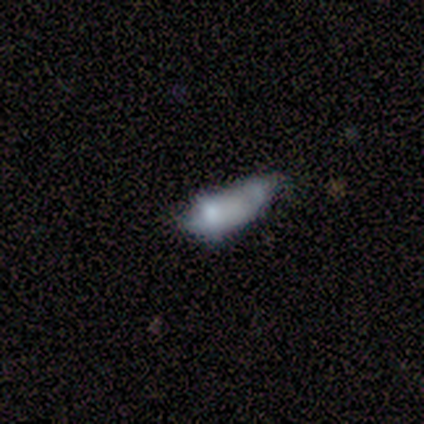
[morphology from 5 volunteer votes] A featured or disk galaxy (60%) with no bar (100%), no spiral arms (100%) and a moderate central bulge (50%, tied with none). Merging: none (50%).